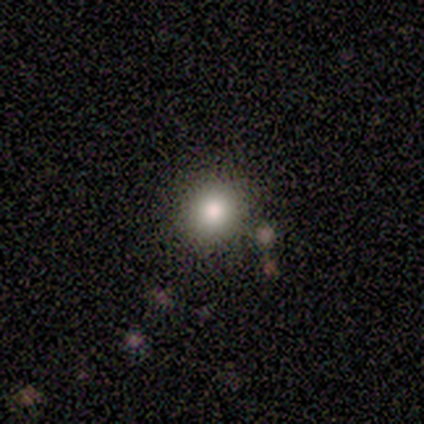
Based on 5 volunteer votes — Volunteers were most divided on "how rounded": round: 80%, in between: 20%, cigar-shaped: 0%. More confident: smooth or featured — smooth (100%); merging — none (80%).